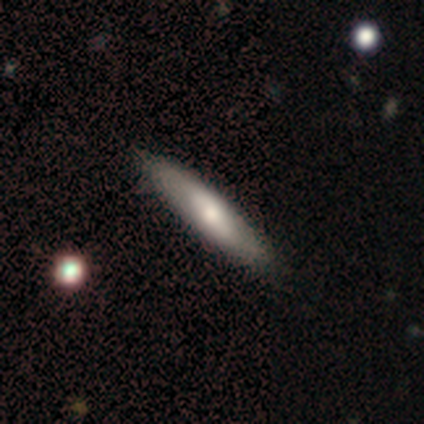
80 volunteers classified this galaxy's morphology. smooth 59%, featured or disk 38%, star or artifact 4%. Down the decision tree: how rounded — cigar-shaped (72%); merging — none (42%).